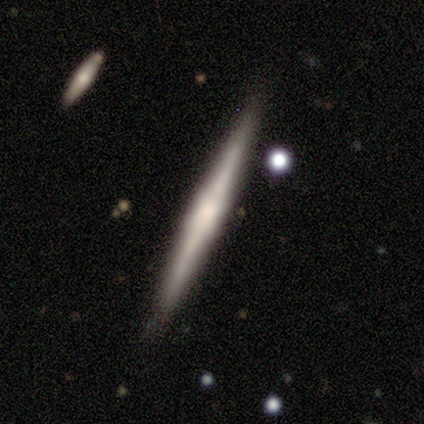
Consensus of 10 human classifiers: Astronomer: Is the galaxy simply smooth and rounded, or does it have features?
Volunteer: smooth — 60% (runner-up: featured or disk, 40%).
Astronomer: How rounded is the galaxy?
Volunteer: cigar-shaped — 83%.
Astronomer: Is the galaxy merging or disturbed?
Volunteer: none — 80%.